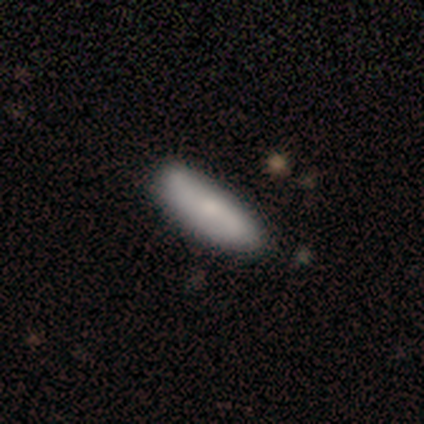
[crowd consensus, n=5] smooth_or_featured: smooth (p=0.60) [alt: featured or disk p=0.40]
how_rounded: cigar-shaped (p=1.00)
merging: none (p=0.60) [alt: minor disturbance p=0.20]